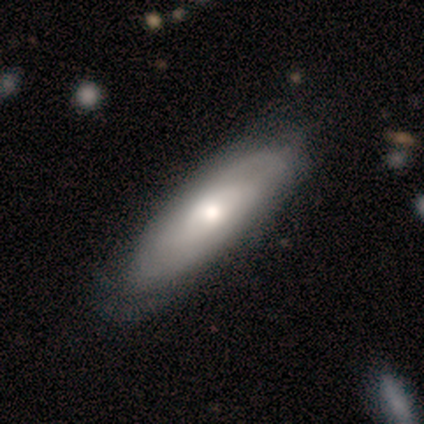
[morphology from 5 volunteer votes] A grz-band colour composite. It shows a smooth galaxy with no disk features (60%) that is in between round and cigar-shaped (100%). Merging: none (60%).